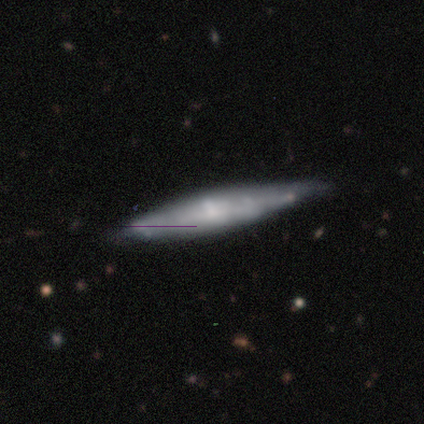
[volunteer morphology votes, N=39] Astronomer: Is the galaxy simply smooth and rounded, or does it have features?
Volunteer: featured or disk — 62%.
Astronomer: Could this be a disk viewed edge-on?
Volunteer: yes — 83%.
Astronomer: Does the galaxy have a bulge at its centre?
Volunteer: rounded — 65%.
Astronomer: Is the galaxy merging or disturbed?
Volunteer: none — 79%.